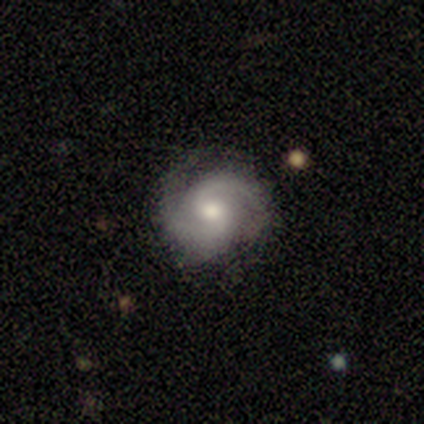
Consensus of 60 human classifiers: Q: Smooth or featured?
A: featured or disk (90%); runner-up: smooth (8%)
Q: Edge-on disk?
A: no (98%); runner-up: yes (2%)
Q: Bar?
A: no (64%); runner-up: weak (34%)
Q: Spiral arms?
A: yes (96%); runner-up: no (4%)
Q: Spiral winding?
A: medium (63%); runner-up: tight (27%)
Q: Spiral arm count?
A: 2 (96%); runner-up: 4 (2%)
Q: Bulge size?
A: moderate (62%); runner-up: small (23%)
Q: Merging?
A: none (68%); runner-up: minor disturbance (22%)